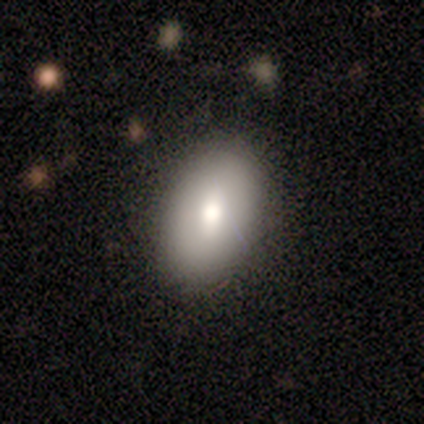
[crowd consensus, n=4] smooth_or_featured: smooth (p=0.75) [alt: featured or disk p=0.25]
how_rounded: in between (p=0.67) [alt: round p=0.33]
merging: none (p=0.50) [tied with: minor disturbance p=0.50]